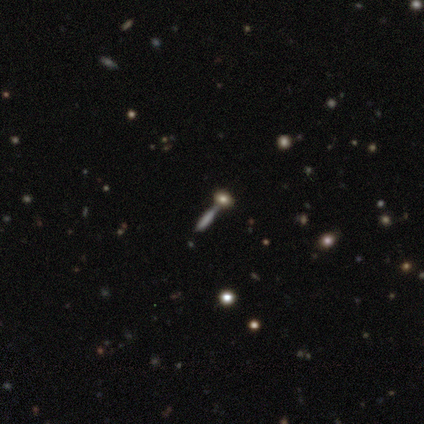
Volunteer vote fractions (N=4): smooth-or-featured: smooth: 75% | featured or disk: 25% | star or artifact: 0%
  how-rounded: cigar-shaped: 100% | round: 0% | in between: 0%
  merging: minor disturbance: 50% | major disturbance: 25% | merger: 25% | none: 0%